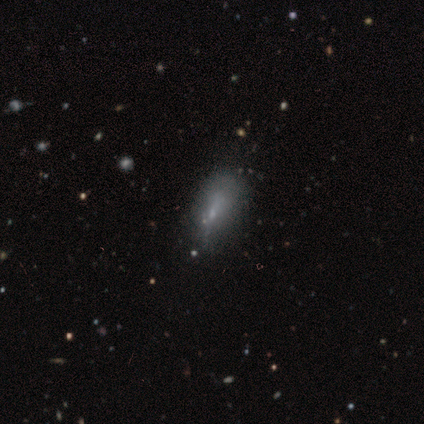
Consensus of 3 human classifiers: This appears to be a featured or disk galaxy (67%) viewed edge-on (50%, tied with no) with a boxy central bulge (100%). Merging: minor disturbance (50%, tied with major disturbance).